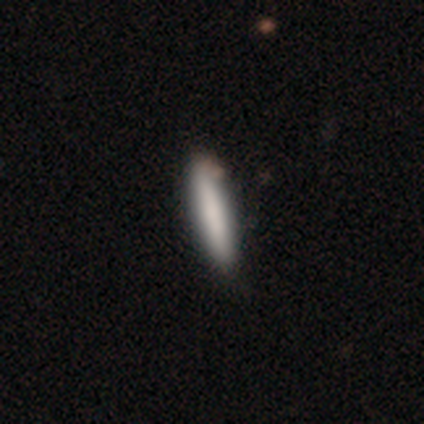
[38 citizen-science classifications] Smooth or featured: smooth — 84% (featured or disk — 16%)
How rounded: cigar-shaped — 91% (in between — 9%)
Merging: none — 58% (minor disturbance — 13%)